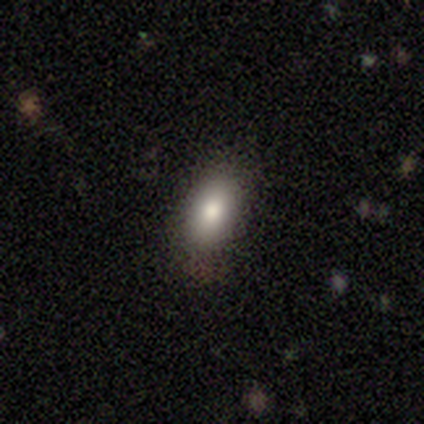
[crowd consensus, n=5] A smooth galaxy with no disk features (100%) that is in between round and cigar-shaped (80%).

Vote fractions:
- Smooth or featured? smooth: 100% / featured or disk: 0% / star or artifact: 0%
- How rounded? in between: 80% / round: 20% / cigar-shaped: 0%
- Merging? none: 60% / minor disturbance: 20% / merger: 20% / major disturbance: 0%